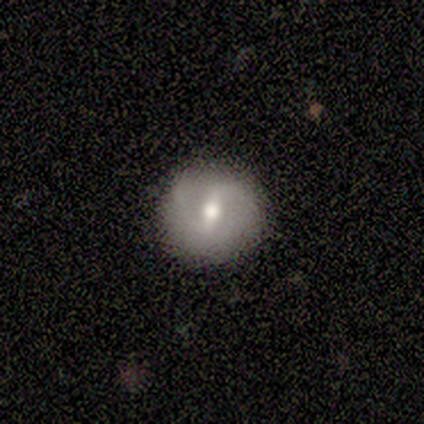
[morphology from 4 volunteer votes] Smooth or featured? 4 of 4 (100%) said featured or disk. Edge-on disk? 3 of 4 (75%) said no. Bar? 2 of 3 (67%) said weak. Spiral arms? 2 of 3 (67%) said yes. Spiral winding? 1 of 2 (50%, tied with medium) said tight. Spiral arm count? 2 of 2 (100%) said 2. Bulge size? 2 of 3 (67%) said moderate. Merging? 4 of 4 (100%) said none.